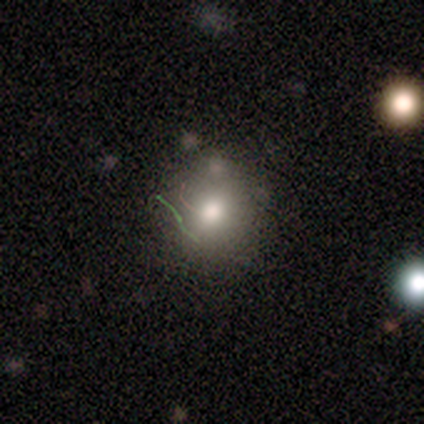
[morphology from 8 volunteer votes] Smooth or featured? smooth (75%)
How rounded? round (100%)
Merging? none (57%)